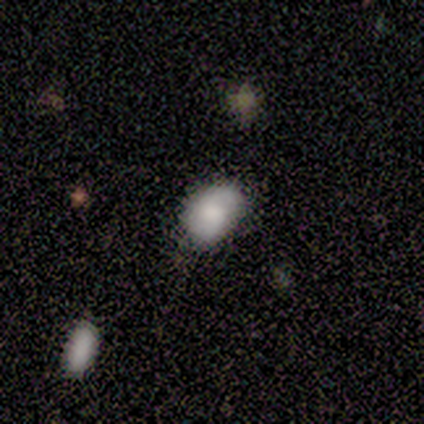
Q: Smooth or featured?
A: smooth (75%); runner-up: featured or disk (25%)
Q: How rounded?
A: in between (67%); runner-up: round (33%)
Q: Merging?
A: none (50%); runner-up: minor disturbance (25%)